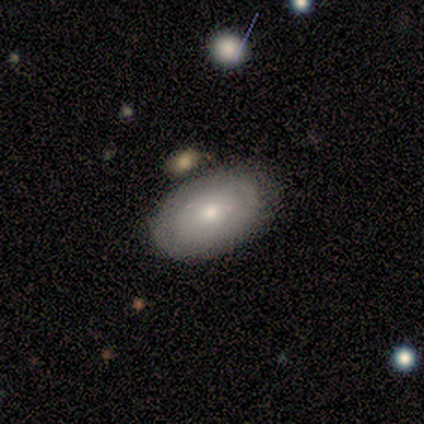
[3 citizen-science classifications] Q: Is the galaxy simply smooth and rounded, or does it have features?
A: smooth — 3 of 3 (100%).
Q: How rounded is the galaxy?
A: in between — 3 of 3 (100%).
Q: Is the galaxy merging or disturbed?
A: none — 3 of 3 (100%).